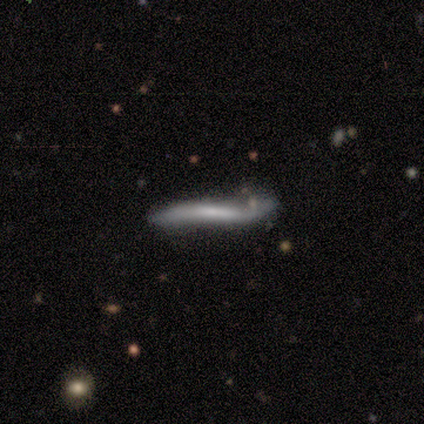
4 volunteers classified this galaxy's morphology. Smooth or featured? 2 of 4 (50%, tied with featured or disk) said smooth. How rounded? 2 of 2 (100%) said cigar-shaped. Merging? 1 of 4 (25%, tied with minor disturbance, major disturbance and merger) said none.